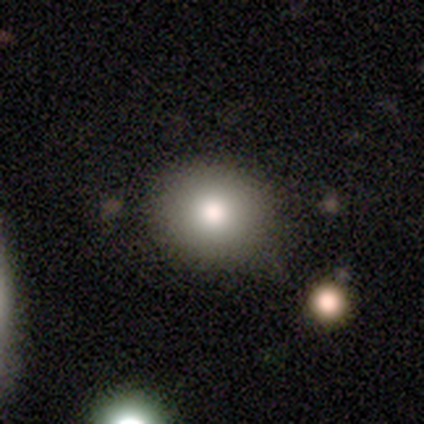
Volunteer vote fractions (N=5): Smooth or featured: smooth — 60% (featured or disk — 20%)
How rounded: round — 100%
Merging: none — 75% (merger — 25%)